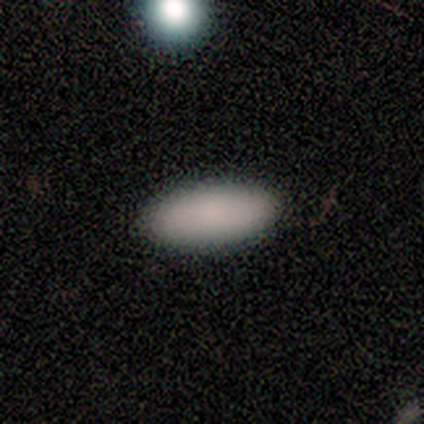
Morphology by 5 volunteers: This appears to be a smooth galaxy with no disk features (100%) that is in between round and cigar-shaped (100%). Merging: none (100%).